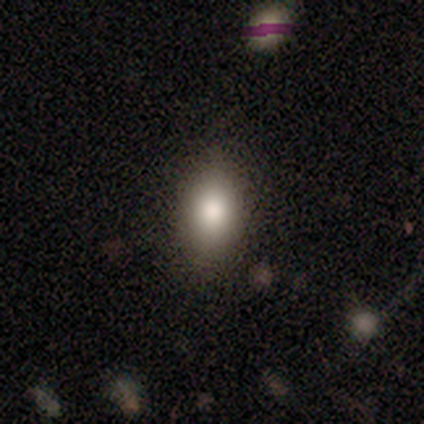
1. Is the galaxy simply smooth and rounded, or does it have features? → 80% smooth, 20% star or artifact, 0% featured or disk.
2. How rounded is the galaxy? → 75% in between, 25% cigar-shaped, 0% round.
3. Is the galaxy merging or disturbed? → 75% none, 25% minor disturbance, 0% major disturbance, 0% merger.